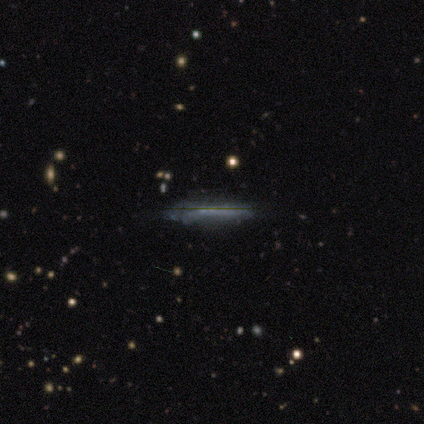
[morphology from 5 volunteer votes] This is clearly a featured or disk galaxy (80%). It is clearly viewed edge-on (100%). Edge-on bulge: clearly none (100%). Merging: likely none (75%).